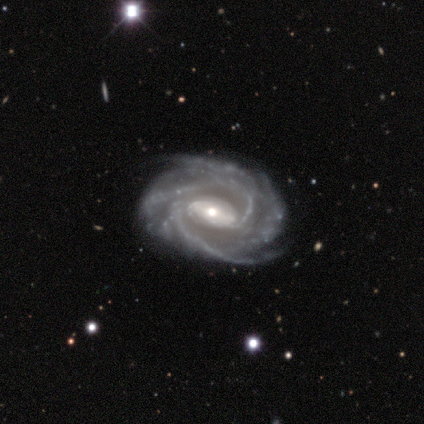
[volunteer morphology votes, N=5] Q: Smooth or featured?
A: featured or disk (100%)
Q: Edge-on disk?
A: no (100%)
Q: Bar?
A: strong (40%); tied with: weak (40%)
Q: Spiral arms?
A: yes (100%)
Q: Spiral winding?
A: tight (100%)
Q: Spiral arm count?
A: 2 (40%); tied with: 4 (40%)
Q: Bulge size?
A: moderate (60%); runner-up: large (20%)
Q: Merging?
A: none (100%)